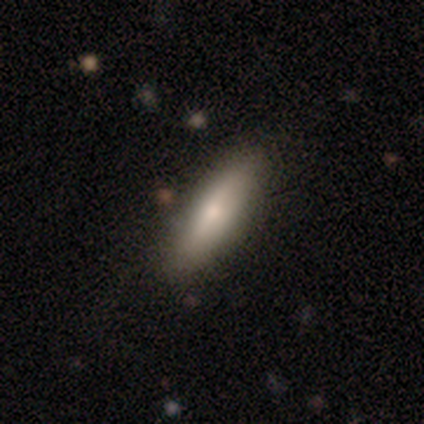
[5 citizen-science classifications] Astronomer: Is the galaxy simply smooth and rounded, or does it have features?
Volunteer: smooth — 80%.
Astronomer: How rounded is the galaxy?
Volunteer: cigar-shaped — 75%.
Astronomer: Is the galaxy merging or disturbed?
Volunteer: none — 80%.